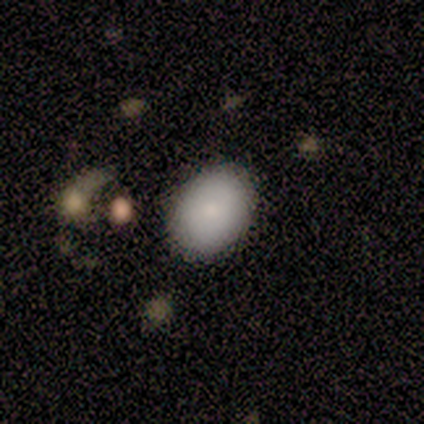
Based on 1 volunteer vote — smooth_or_featured: smooth (p=1.00)
how_rounded: round (p=1.00)
merging: none (p=1.00)